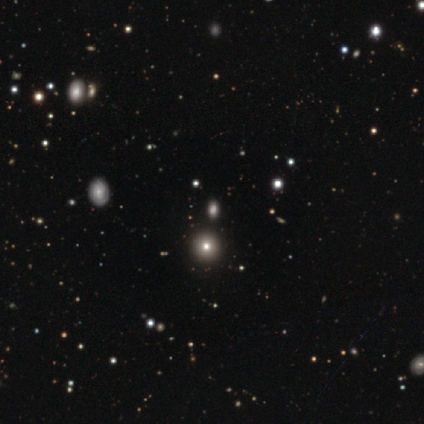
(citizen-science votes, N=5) Smooth or featured?
  - star or artifact: 100% *
  - smooth: 0%
  - featured or disk: 0%